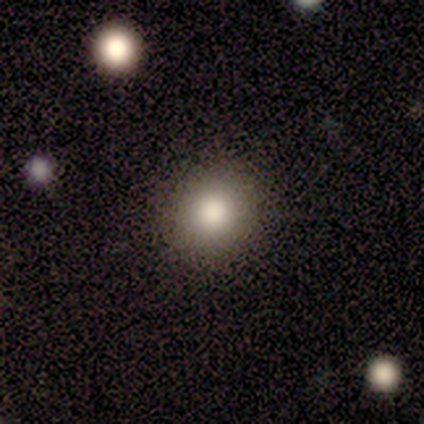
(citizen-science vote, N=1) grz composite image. It shows a smooth galaxy with no disk features (100%) that is round (100%). Merging: none (100%).